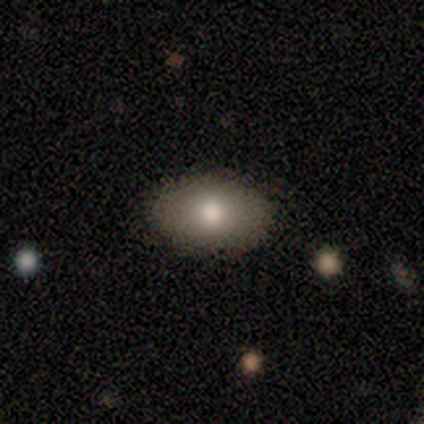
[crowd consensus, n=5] smooth-or-featured: smooth: 80% | featured or disk: 20% | star or artifact: 0%
  how-rounded: in between: 100% | round: 0% | cigar-shaped: 0%
  merging: none: 100% | minor disturbance: 0% | major disturbance: 0% | merger: 0%